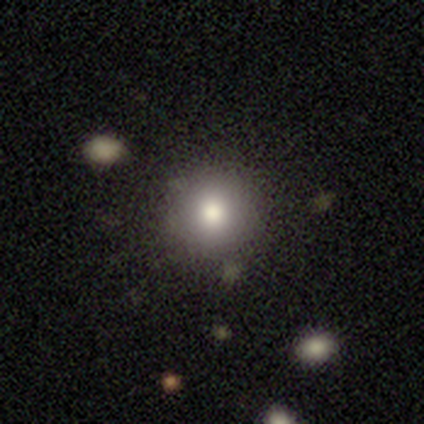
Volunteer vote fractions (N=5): Q: Smooth or featured?
A: smooth (40%); tied with: featured or disk (40%)
Q: How rounded?
A: round (100%)
Q: Merging?
A: none (75%); runner-up: minor disturbance (25%)